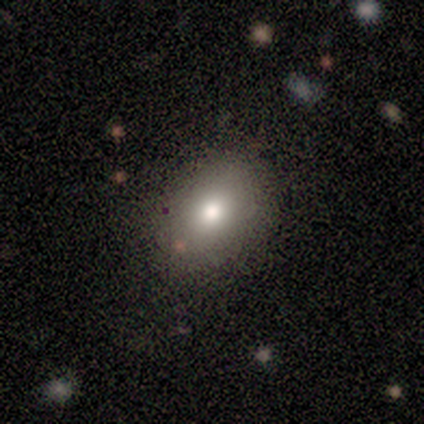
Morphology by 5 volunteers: This is likely a smooth galaxy (60%). How rounded: clearly in between (100%). Merging: likely none (60%).